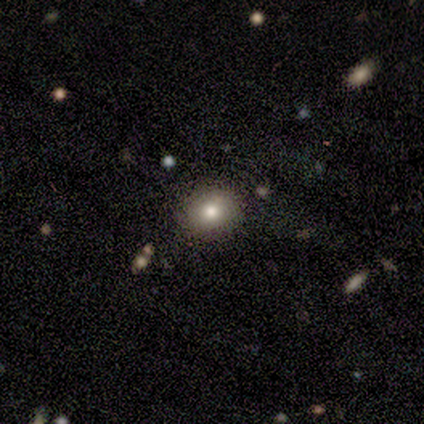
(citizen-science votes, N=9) A smooth galaxy with no disk features (78%) that is round (71%).

Vote fractions:
- Smooth or featured? smooth: 78% / featured or disk: 11% / star or artifact: 11%
- How rounded? round: 71% / in between: 29% / cigar-shaped: 0%
- Merging? none: 88% / minor disturbance: 12% / major disturbance: 0% / merger: 0%